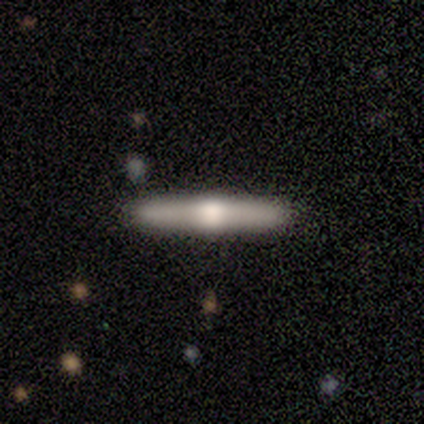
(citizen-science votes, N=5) smooth 60%, featured or disk 40%, star or artifact 0%. Down the decision tree: how rounded — cigar-shaped (100%); merging — none (60%).